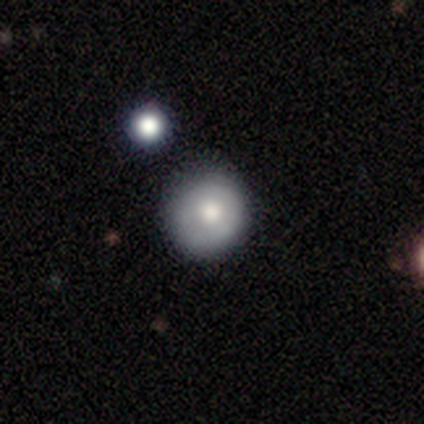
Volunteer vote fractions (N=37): Overall: smooth (65%). How rounded: round (92%). Merging: none (61%; minor disturbance 26%).